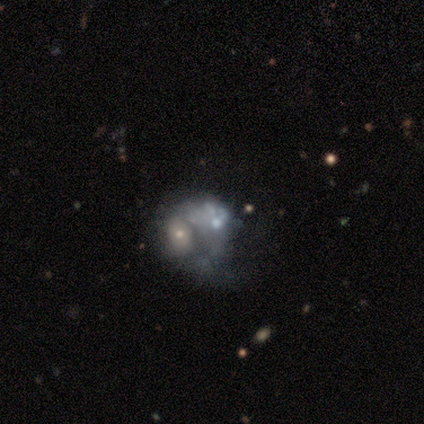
Volunteers were most divided on "bulge size": none: 50%, moderate: 25%, small: 25%, dominant: 0%, large: 0%. More confident: edge-on disk — no (100%); bar — no (100%); smooth or featured — featured or disk (80%); spiral arms — no (75%); merging — merger (60%).